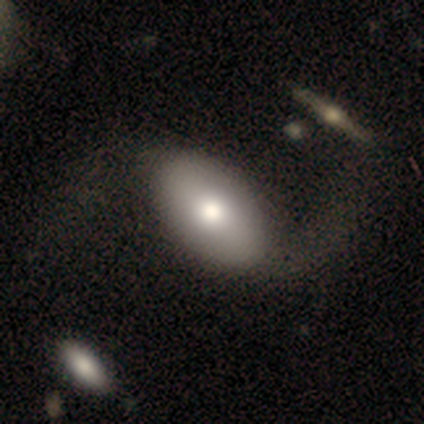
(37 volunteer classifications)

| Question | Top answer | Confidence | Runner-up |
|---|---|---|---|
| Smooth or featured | smooth | 62% | featured or disk (38%) |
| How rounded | in between | 87% | round (9%) |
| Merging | none | 41% | minor disturbance (11%) |